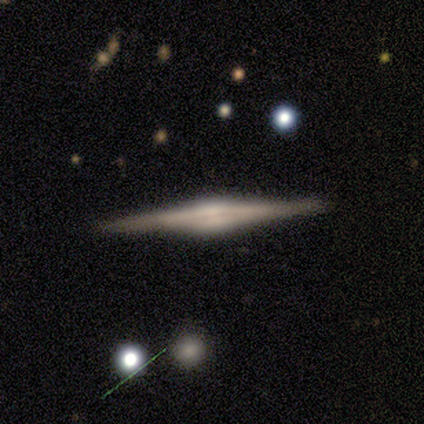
A featured or disk galaxy (89%) viewed edge-on (100%) with a rounded central bulge (50%). Merging: none (88%).